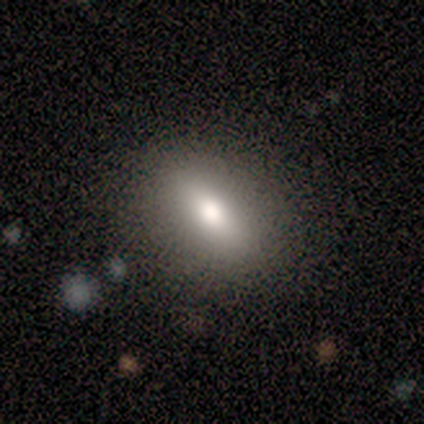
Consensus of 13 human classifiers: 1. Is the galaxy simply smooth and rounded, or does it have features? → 77% smooth, 15% star or artifact, 8% featured or disk.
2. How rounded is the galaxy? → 70% in between, 20% cigar-shaped, 10% round.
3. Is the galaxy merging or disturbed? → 100% none, 0% minor disturbance, 0% major disturbance, 0% merger.